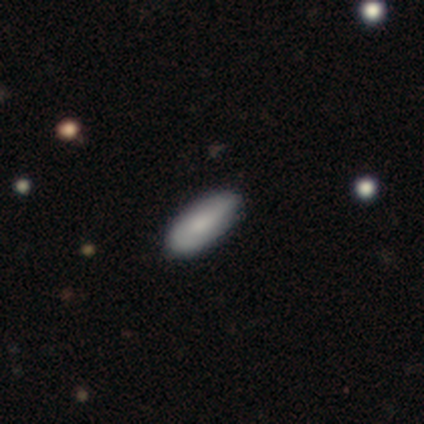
Smooth or featured?
  - smooth: 80% *
  - featured or disk: 20%
  - star or artifact: 0%
How rounded?
  - in between: 50% * (tied)
  - cigar-shaped: 50% * (tied)
  - round: 0%
Merging?
  - none: 100% *
  - minor disturbance: 0%
  - major disturbance: 0%
  - merger: 0%